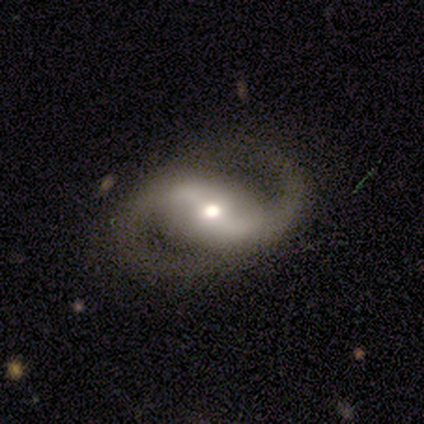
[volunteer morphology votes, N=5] Q: Smooth or featured?
A: featured or disk (100%)
Q: Edge-on disk?
A: no (100%)
Q: Bar?
A: strong (80%); runner-up: no (20%)
Q: Spiral arms?
A: yes (100%)
Q: Spiral winding?
A: loose (80%); runner-up: medium (20%)
Q: Spiral arm count?
A: 2 (100%)
Q: Bulge size?
A: moderate (80%); runner-up: small (20%)
Q: Merging?
A: none (100%)